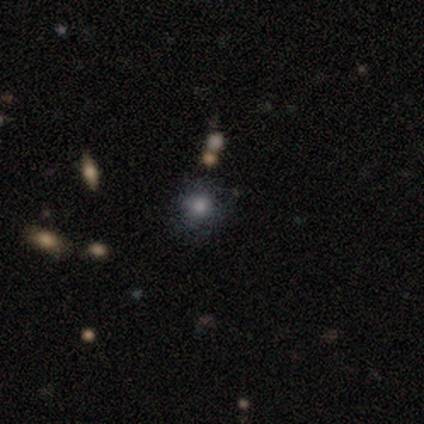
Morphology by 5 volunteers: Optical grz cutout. It shows a smooth galaxy with no disk features (80%) that is round (100%). Merging: none (100%).